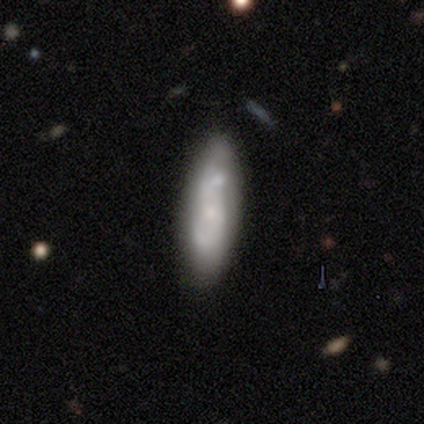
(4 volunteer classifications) Overall: smooth (50%, tied with featured or disk). How rounded: in between (50%, tied with cigar-shaped). Merging: none (75%).